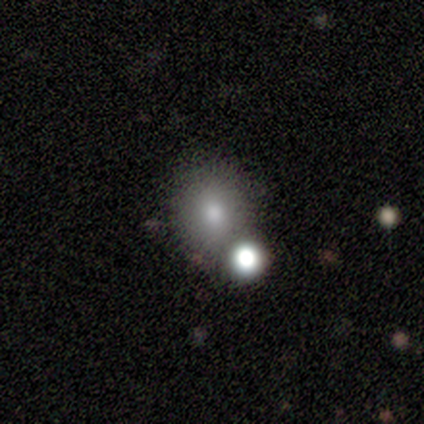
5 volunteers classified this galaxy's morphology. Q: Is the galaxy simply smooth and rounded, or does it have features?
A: featured or disk — 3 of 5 (60%).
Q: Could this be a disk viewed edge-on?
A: no — 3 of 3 (100%).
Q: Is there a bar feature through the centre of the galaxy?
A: no — 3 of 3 (100%).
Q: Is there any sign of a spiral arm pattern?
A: no — 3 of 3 (100%).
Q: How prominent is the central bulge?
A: small — 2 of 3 (67%).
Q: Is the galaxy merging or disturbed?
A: none — 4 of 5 (80%).